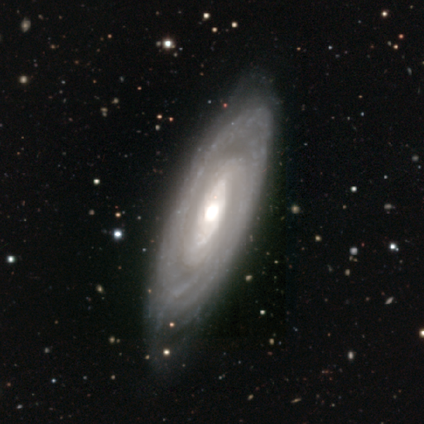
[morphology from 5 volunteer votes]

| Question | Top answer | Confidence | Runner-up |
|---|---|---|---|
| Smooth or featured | featured or disk | 100% | — |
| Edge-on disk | no | 80% | yes (20%) |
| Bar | no | 75% | strong (25%) |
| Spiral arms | yes | 50% | tied: no (50%) |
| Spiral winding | tight | 100% | — |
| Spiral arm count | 2 | 50% | tied: can't tell (50%) |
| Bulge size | moderate | 75% | large (25%) |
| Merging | none | 80% | minor disturbance (20%) |